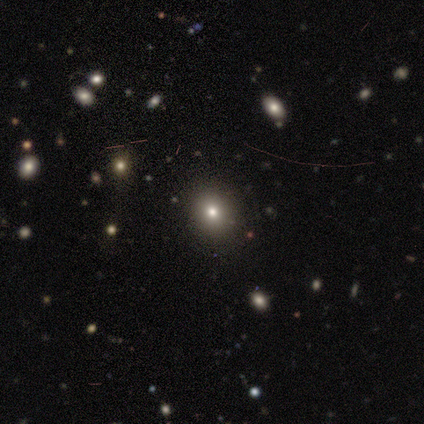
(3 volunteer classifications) Smooth or featured: star or artifact — 100%